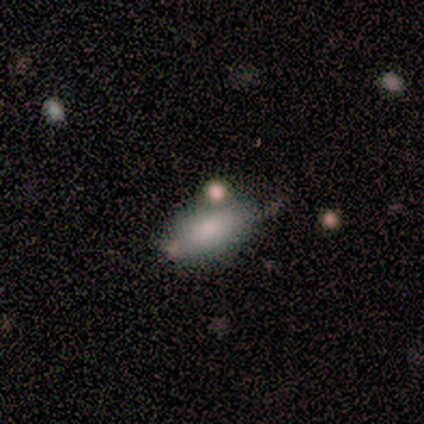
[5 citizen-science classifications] Smooth or featured?
  - smooth: 100% *
  - featured or disk: 0%
  - star or artifact: 0%
How rounded?
  - in between: 100% *
  - round: 0%
  - cigar-shaped: 0%
Merging?
  - none: 80% *
  - minor disturbance: 20%
  - major disturbance: 0%
  - merger: 0%